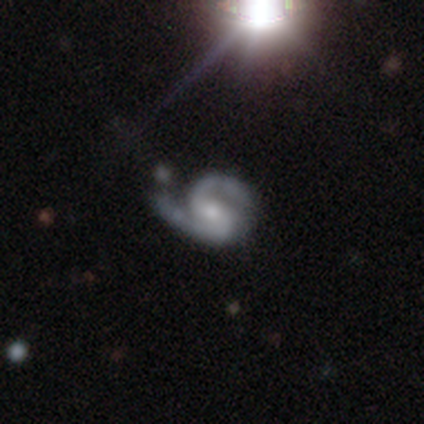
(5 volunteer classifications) featured or disk 100%, smooth 0%, star or artifact 0%. Down the decision tree: edge-on disk — no (100%); bar — no (60%); spiral arms — yes (100%); spiral arm count — 2 (100%); spiral winding — medium (100%); bulge size — small (60%); merging — minor disturbance (40%, tied with major disturbance).